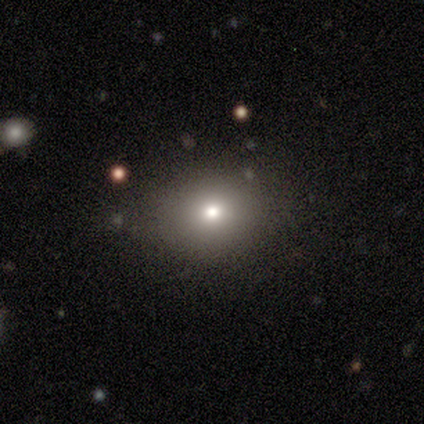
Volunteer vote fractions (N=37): This appears to be a smooth galaxy with no disk features (70%) that is round (54%). Merging: none (89%).